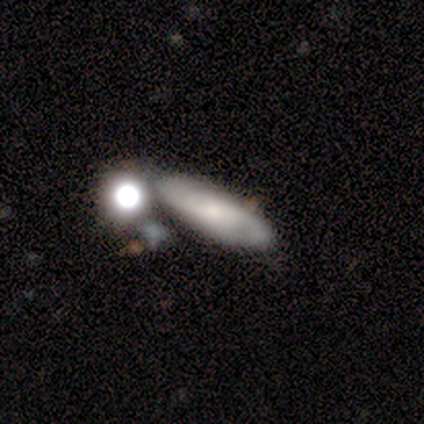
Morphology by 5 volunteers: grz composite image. It shows a featured or disk galaxy (60%) with no bar (67%), 2 (67%) medium (67%) spiral arms (100%) and a small central bulge (67%). Merging: none (100%).